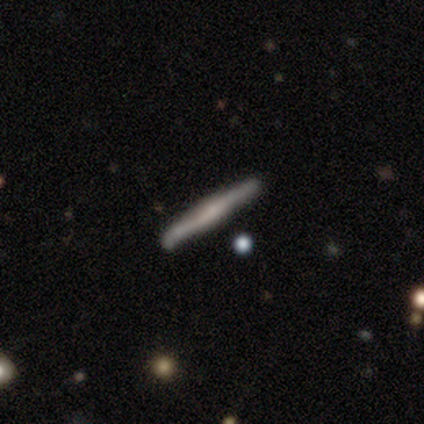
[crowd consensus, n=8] smooth-or-featured: featured or disk: 62% | smooth: 38% | star or artifact: 0%
  disk-edge-on: yes: 100% | no: 0%
    edge-on-bulge: boxy: 40% (tied) | none: 40% (tied) | rounded: 20%
  merging: none: 62% | minor disturbance: 38% | major disturbance: 0% | merger: 0%